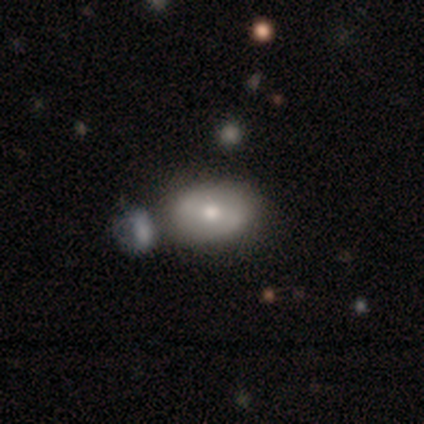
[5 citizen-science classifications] smooth_or_featured: featured or disk (p=0.60) [alt: smooth p=0.40]
disk_edge_on: no (p=1.00)
bar: strong (p=0.33) [tied with: weak p=0.33, no p=0.33]
has_spiral_arms: no (p=0.67) [alt: yes p=0.33]
bulge_size: moderate (p=1.00)
merging: none (p=0.40) [tied with: minor disturbance p=0.40]